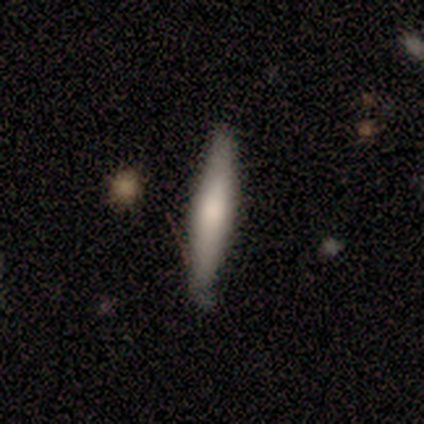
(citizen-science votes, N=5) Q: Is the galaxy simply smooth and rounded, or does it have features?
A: smooth — 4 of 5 (80%).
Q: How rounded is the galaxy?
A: cigar-shaped — 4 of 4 (100%).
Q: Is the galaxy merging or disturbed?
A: none — 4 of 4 (100%).